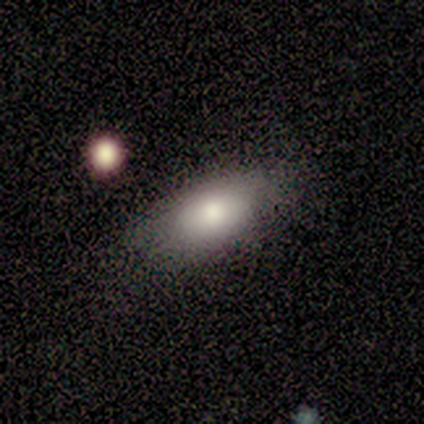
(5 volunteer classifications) Q: Smooth or featured?
A: smooth (100%)
Q: How rounded?
A: in between (100%)
Q: Merging?
A: none (60%); runner-up: minor disturbance (20%)